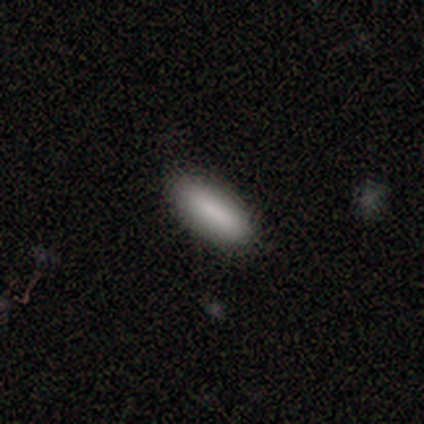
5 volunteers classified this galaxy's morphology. Volunteers were most divided on "merging": none: 60%, minor disturbance: 40%, major disturbance: 0%, merger: 0%. More confident: smooth or featured — smooth (100%); how rounded — in between (80%).